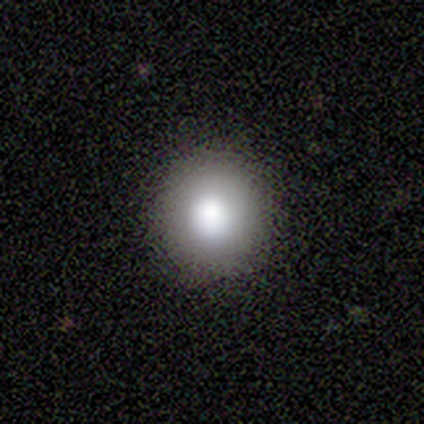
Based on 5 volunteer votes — smooth_or_featured: smooth (p=0.60) [alt: featured or disk p=0.40]
how_rounded: round (p=1.00)
merging: none (p=1.00)